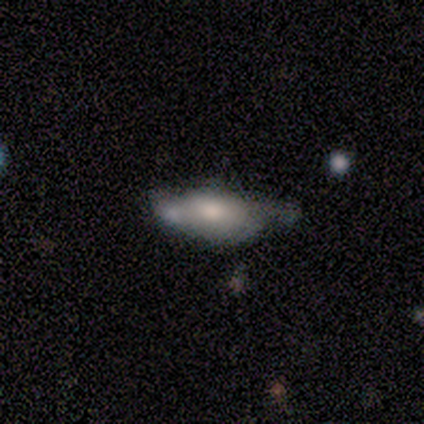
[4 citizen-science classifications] A smooth galaxy with no disk features (75%) that is in between round and cigar-shaped (100%). Merging: minor disturbance (67%).